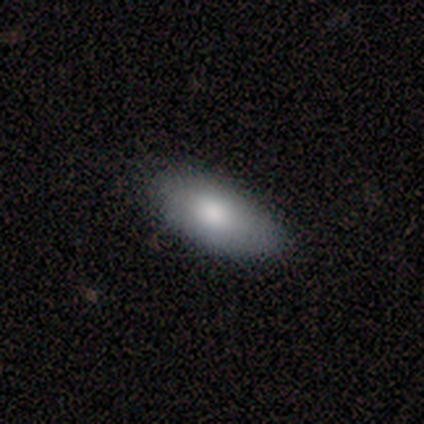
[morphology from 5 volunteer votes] A smooth galaxy with no disk features (60%) that is in between round and cigar-shaped (67%).

Vote fractions:
- Smooth or featured? smooth: 60% / featured or disk: 40% / star or artifact: 0%
- How rounded? in between: 67% / round: 33% / cigar-shaped: 0%
- Merging? none: 80% / minor disturbance: 20% / major disturbance: 0% / merger: 0%